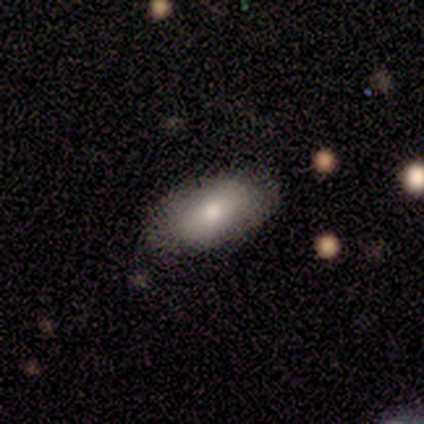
smooth 83%, featured or disk 17%, star or artifact 0%. Down the decision tree: how rounded — in between (100%); merging — none (83%).